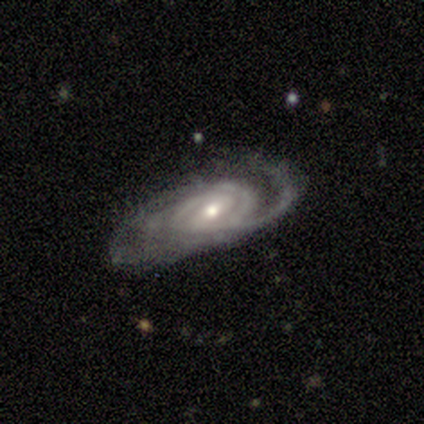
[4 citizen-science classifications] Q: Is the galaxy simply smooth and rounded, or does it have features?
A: featured or disk — 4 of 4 (100%).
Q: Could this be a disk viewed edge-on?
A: no — 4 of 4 (100%).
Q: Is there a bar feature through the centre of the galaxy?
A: strong — 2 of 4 (50%).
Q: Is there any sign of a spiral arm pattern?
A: yes — 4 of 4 (100%).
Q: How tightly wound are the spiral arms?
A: medium — 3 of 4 (75%).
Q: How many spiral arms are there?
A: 2 — 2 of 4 (50%).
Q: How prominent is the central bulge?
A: moderate — 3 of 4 (75%).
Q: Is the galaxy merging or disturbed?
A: none — 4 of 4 (100%).